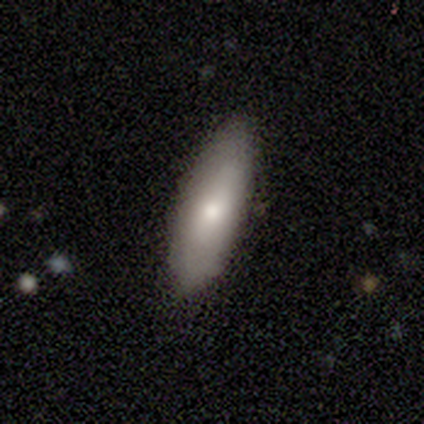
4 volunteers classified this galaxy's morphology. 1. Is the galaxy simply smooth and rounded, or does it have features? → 50% smooth, 25% featured or disk, 25% star or artifact.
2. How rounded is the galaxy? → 50% in between (tied), 50% cigar-shaped (tied), 0% round.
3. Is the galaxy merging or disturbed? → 100% none, 0% minor disturbance, 0% major disturbance, 0% merger.